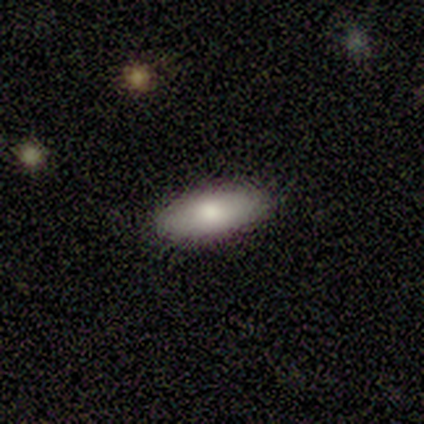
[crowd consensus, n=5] smooth-or-featured: smooth: 100% | featured or disk: 0% | star or artifact: 0%
  how-rounded: in between: 100% | round: 0% | cigar-shaped: 0%
  merging: none: 80% | minor disturbance: 20% | major disturbance: 0% | merger: 0%